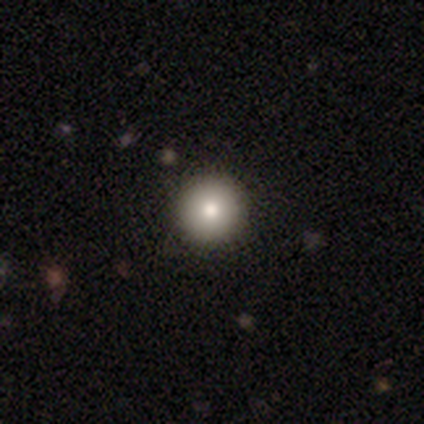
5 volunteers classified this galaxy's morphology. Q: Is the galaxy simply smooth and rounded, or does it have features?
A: smooth — 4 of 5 (80%).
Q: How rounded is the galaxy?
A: round — 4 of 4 (100%).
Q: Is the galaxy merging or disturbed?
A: none — 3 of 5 (60%).